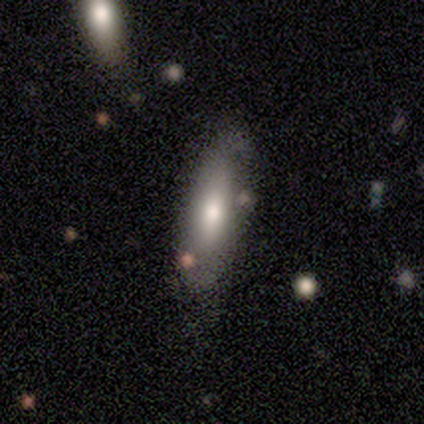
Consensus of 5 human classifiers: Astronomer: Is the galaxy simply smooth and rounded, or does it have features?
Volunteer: featured or disk — 60% (runner-up: smooth, 40%).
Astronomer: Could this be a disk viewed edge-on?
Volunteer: yes — 67%.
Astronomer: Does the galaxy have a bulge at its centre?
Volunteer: rounded — 100%.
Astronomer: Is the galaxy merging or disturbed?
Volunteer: minor disturbance — 60% (runner-up: none, 40%).